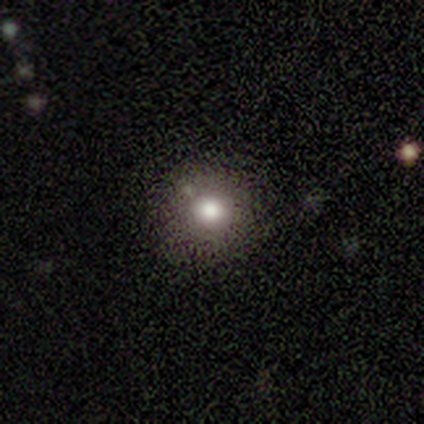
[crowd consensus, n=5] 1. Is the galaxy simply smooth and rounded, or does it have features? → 100% smooth, 0% featured or disk, 0% star or artifact.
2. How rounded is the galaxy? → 80% round, 20% in between, 0% cigar-shaped.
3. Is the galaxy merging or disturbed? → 80% none, 20% minor disturbance, 0% major disturbance, 0% merger.